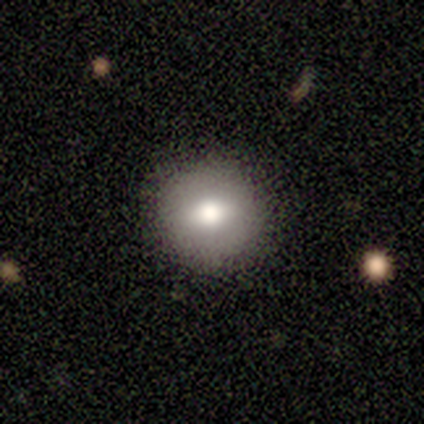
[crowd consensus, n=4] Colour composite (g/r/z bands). It shows a smooth galaxy with no disk features (50%) that is round (50%, tied with in between). Merging: none (100%).